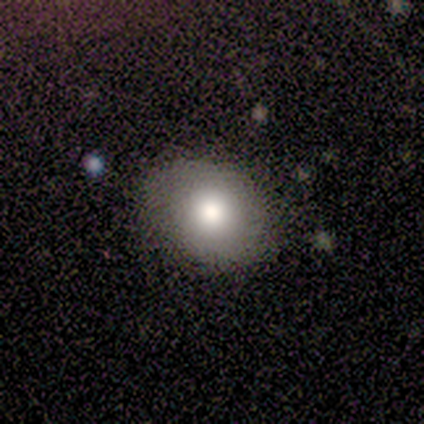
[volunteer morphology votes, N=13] Smooth or featured?
  - smooth: 92% *
  - featured or disk: 8%
  - star or artifact: 0%
How rounded?
  - round: 50% * (tied)
  - in between: 50% * (tied)
  - cigar-shaped: 0%
Merging?
  - none: 77% *
  - minor disturbance: 15%
  - major disturbance: 8%
  - merger: 0%